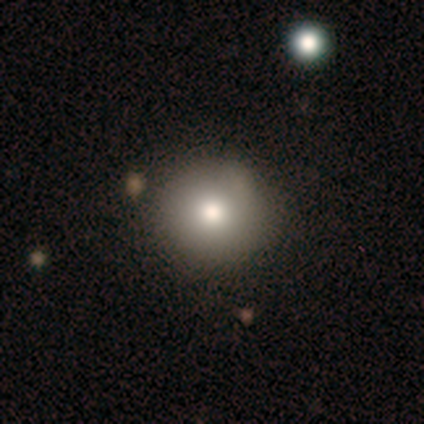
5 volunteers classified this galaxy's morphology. A smooth galaxy with no disk features (100%) that is round (80%).

Vote fractions:
- Smooth or featured? smooth: 100% / featured or disk: 0% / star or artifact: 0%
- How rounded? round: 80% / in between: 20% / cigar-shaped: 0%
- Merging? minor disturbance: 60% / none: 40% / major disturbance: 0% / merger: 0%